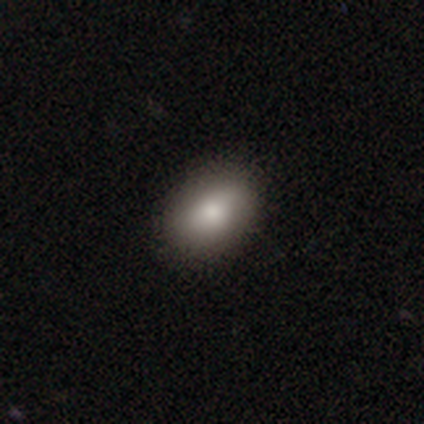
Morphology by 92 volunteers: A smooth galaxy with no disk features (80%) that is in between round and cigar-shaped (81%). Merging: none (81%).